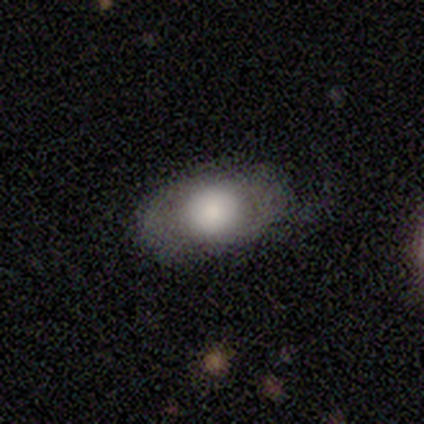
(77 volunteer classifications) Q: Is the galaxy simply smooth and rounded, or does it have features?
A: smooth — 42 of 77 (55%).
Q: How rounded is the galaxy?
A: in between — 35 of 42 (83%).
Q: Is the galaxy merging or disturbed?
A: none — 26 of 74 (35%).